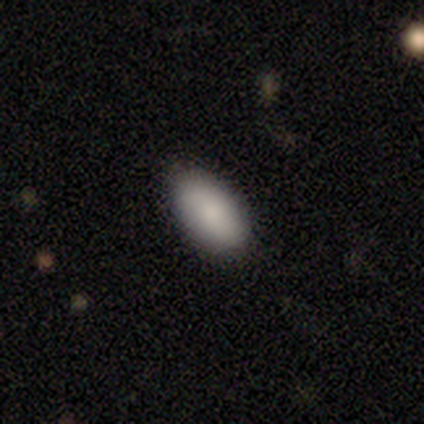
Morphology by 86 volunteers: This appears to be a smooth galaxy with no disk features (85%) that is in between round and cigar-shaped (97%). Merging: none (89%).